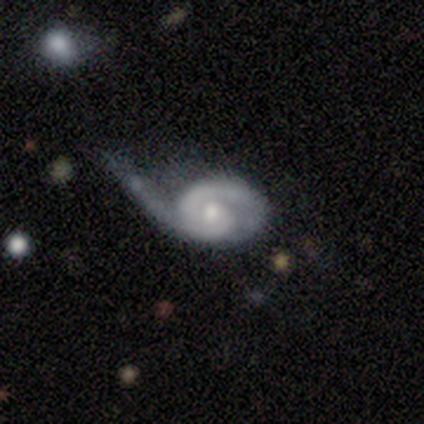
This is clearly a featured or disk galaxy (100%). It is clearly not viewed edge-on (100%). Bar: likely no (60%). Spiral arm pattern: clearly yes (100%). Spiral arm count: clearly 2 (100%). Spiral winding: clearly tight (80%). Central bulge: clearly moderate (80%). Merging: clearly major disturbance (80%).